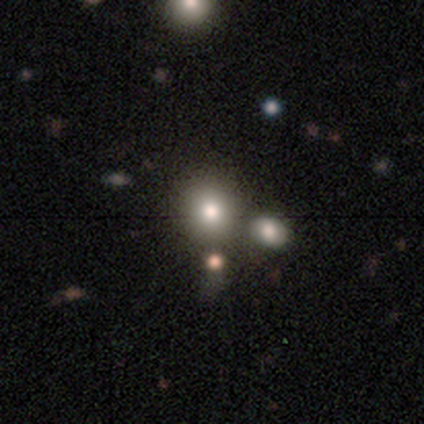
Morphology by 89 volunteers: Overall: smooth (70%). How rounded: round (87%). Merging: none (62%).